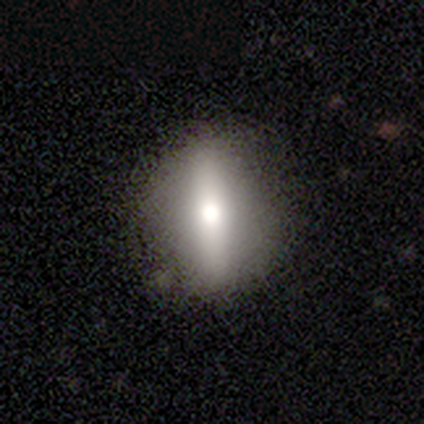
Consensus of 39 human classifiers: Volunteers were most divided on "edge-on disk" (2-way tie): yes: 50%, no: 50%. Remaining: edge-on bulge — rounded (89%); merging — none (67%); smooth or featured — featured or disk (46%).